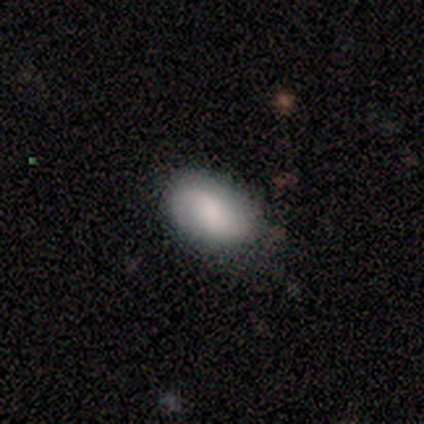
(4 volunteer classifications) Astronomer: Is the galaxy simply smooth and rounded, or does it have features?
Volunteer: smooth — 100%.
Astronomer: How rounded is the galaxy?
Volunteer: round — 50%, tied with in between at 50%.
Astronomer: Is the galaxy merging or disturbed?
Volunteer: none — 100%.